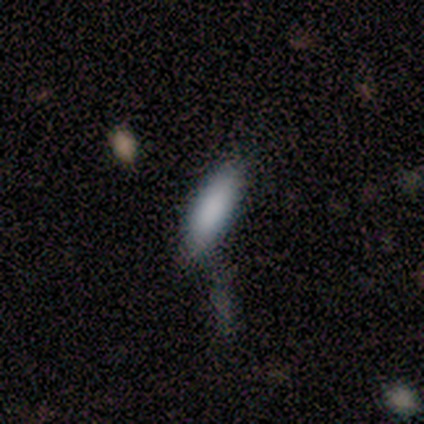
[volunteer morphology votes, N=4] smooth 100%, featured or disk 0%, star or artifact 0%. Down the decision tree: how rounded — in between (75%); merging — none (100%).